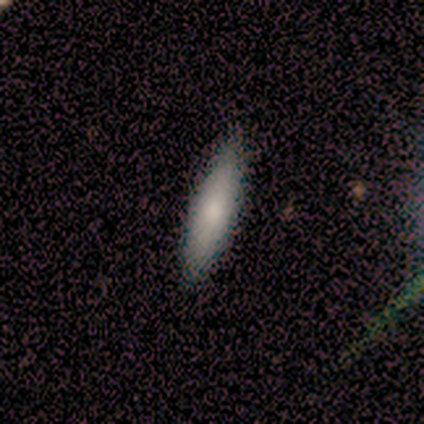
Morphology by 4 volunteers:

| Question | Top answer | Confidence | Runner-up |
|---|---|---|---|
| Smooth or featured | smooth | 75% | featured or disk (25%) |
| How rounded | in between | 67% | cigar-shaped (33%) |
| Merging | none | 100% | — |